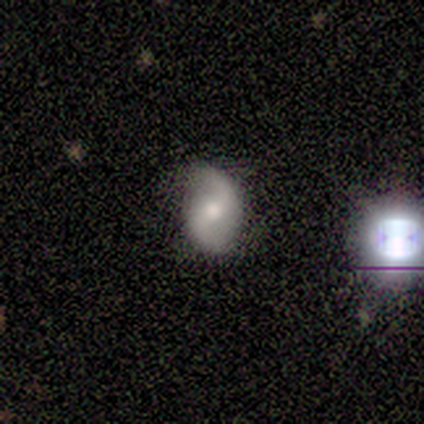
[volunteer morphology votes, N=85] Smooth or featured? 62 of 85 (73%) said featured or disk. Edge-on disk? 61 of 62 (98%) said no. Bar? 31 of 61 (51%) said no. Spiral arms? 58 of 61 (95%) said yes. Spiral winding? 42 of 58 (72%) said loose. Spiral arm count? 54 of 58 (93%) said 2. Bulge size? 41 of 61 (67%) said moderate. Merging? 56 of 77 (73%) said none.